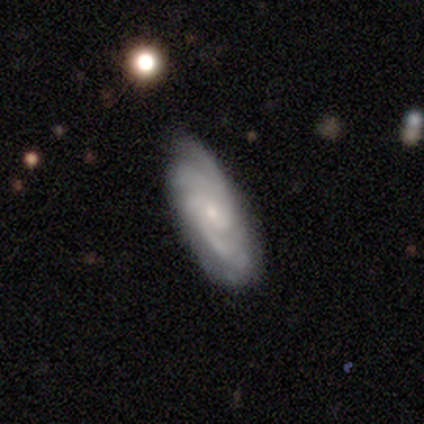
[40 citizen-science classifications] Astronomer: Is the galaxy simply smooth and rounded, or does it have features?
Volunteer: featured or disk — 88%.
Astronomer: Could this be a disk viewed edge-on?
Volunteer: no — 91%.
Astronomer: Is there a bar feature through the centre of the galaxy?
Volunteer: no — 75%.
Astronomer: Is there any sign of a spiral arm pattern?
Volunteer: yes — 100%.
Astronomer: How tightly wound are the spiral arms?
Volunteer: tight — 62%.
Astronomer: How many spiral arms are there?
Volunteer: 3 — 31% (runner-up: 4, 28%).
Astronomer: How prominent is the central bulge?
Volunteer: small — 81%.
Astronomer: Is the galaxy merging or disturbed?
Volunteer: none — 72%.